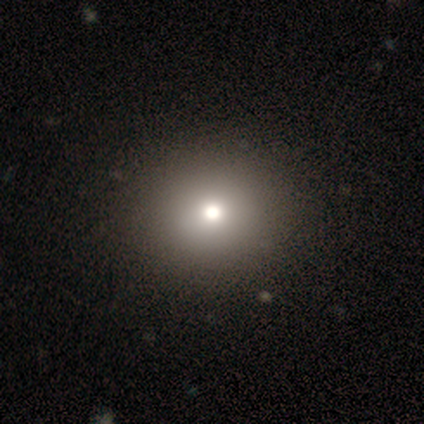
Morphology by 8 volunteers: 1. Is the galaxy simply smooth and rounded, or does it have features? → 75% smooth, 25% featured or disk, 0% star or artifact.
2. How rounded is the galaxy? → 67% round, 33% in between, 0% cigar-shaped.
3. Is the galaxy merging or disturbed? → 88% none, 12% minor disturbance, 0% major disturbance, 0% merger.